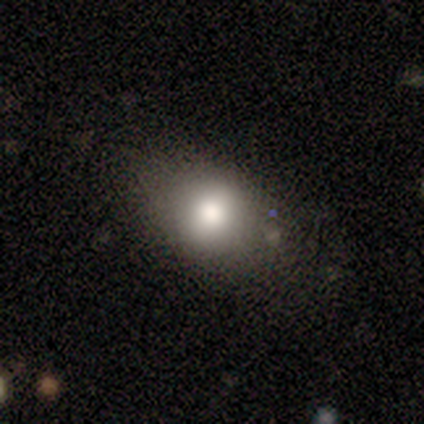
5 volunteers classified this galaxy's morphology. Overall: smooth (80%). How rounded: round (75%). Merging: none (100%).